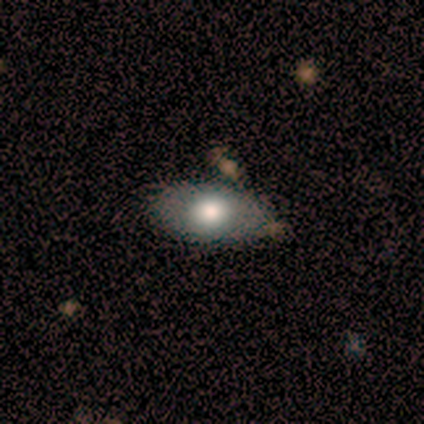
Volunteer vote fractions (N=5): smooth-or-featured: smooth: 80% | featured or disk: 20% | star or artifact: 0%
  how-rounded: in between: 100% | round: 0% | cigar-shaped: 0%
  merging: none: 80% | merger: 20% | minor disturbance: 0% | major disturbance: 0%